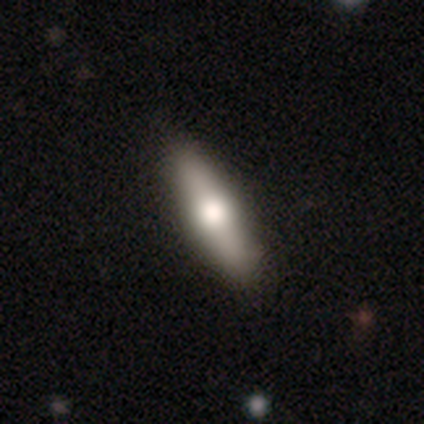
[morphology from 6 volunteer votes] Smooth or featured?
  - featured or disk: 83% *
  - smooth: 17%
  - star or artifact: 0%
Edge-on disk?
  - yes: 60% *
  - no: 40%
Edge-on bulge?
  - rounded: 100% *
  - boxy: 0%
  - none: 0%
Merging?
  - none: 100% *
  - minor disturbance: 0%
  - major disturbance: 0%
  - merger: 0%